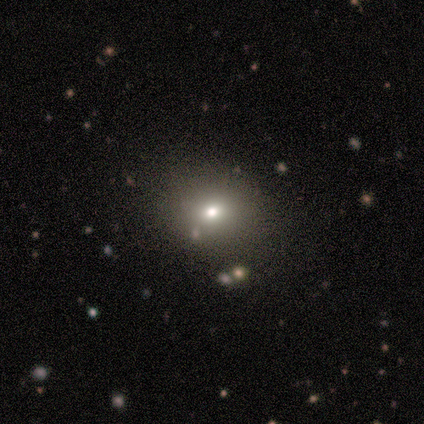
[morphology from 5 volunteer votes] Smooth or featured? smooth (80%)
How rounded? round (50%, tied with in between)
Merging? none (100%)